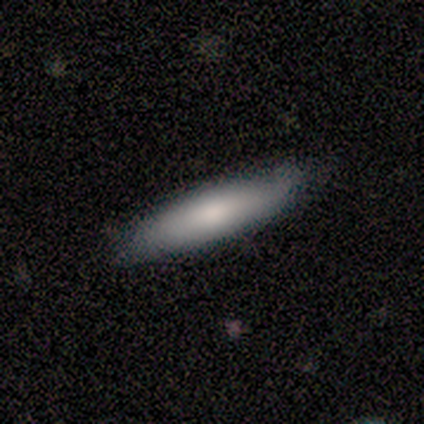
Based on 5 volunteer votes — smooth_or_featured: smooth (p=1.00)
how_rounded: cigar-shaped (p=0.60) [alt: in between p=0.40]
merging: none (p=0.60) [alt: minor disturbance p=0.40]